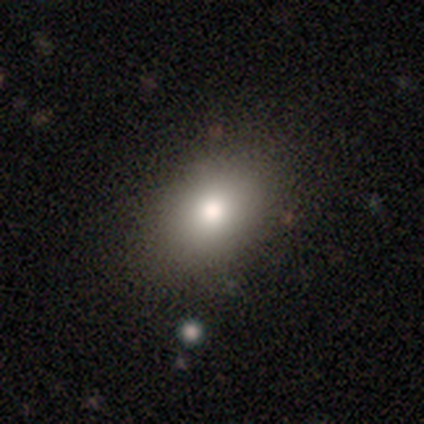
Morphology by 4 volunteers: A smooth galaxy with no disk features (75%) that is in between round and cigar-shaped (100%). Merging: none (100%).